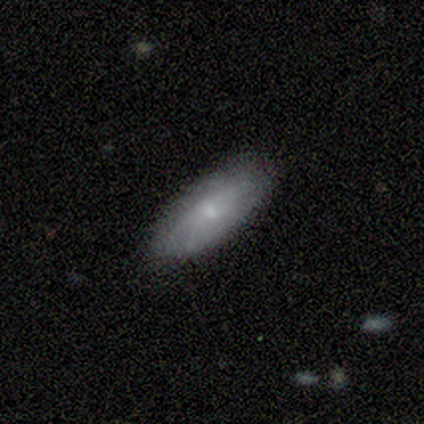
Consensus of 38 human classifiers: Smooth or featured?
  - smooth: 61% *
  - featured or disk: 32%
  - star or artifact: 8%
How rounded?
  - in between: 70% *
  - cigar-shaped: 26%
  - round: 4%
Merging?
  - none: 80% *
  - minor disturbance: 20%
  - major disturbance: 0%
  - merger: 0%